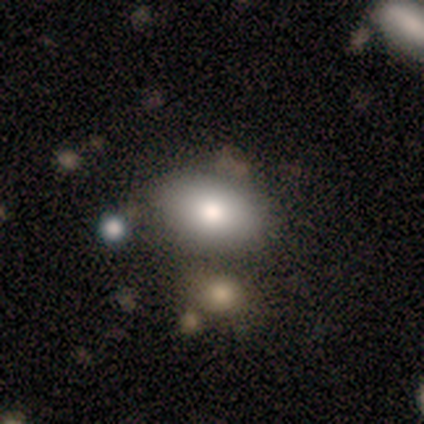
smooth_or_featured: smooth (p=0.50) [alt: featured or disk p=0.25]
how_rounded: in between (p=1.00)
merging: none (p=0.67) [alt: minor disturbance p=0.33]